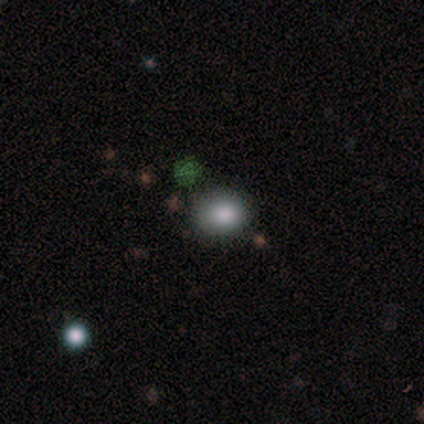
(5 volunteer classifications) This appears to be a smooth galaxy with no disk features (100%) that is round (60%). Merging: none (80%).